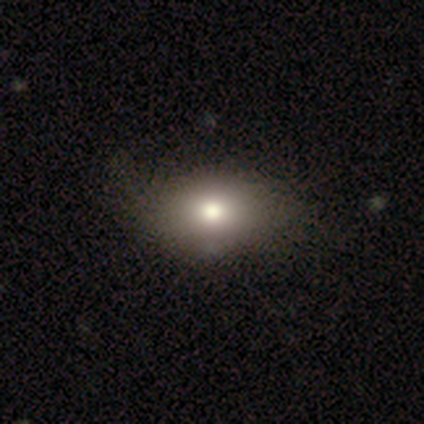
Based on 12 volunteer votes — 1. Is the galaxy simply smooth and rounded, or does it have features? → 75% smooth, 25% featured or disk, 0% star or artifact.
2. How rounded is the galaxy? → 89% in between, 11% round, 0% cigar-shaped.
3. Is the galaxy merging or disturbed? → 58% minor disturbance, 33% none, 8% major disturbance, 0% merger.